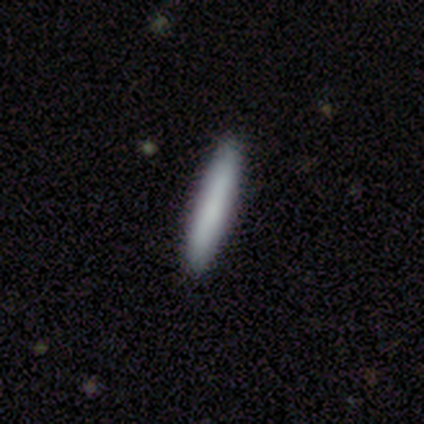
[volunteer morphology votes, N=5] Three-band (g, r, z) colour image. It shows a smooth galaxy with no disk features (100%) that is cigar-shaped (100%). Merging: none (100%).